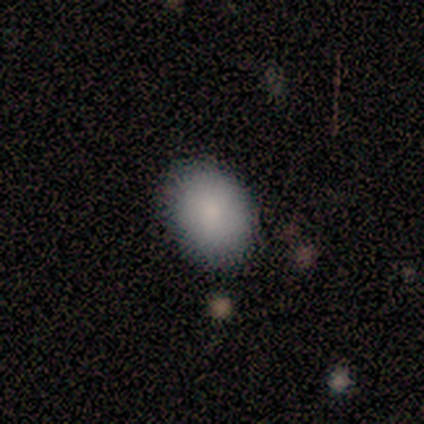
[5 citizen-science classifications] smooth 60%, featured or disk 20%, star or artifact 20%. Down the decision tree: how rounded — in between (67%); merging — none (100%).